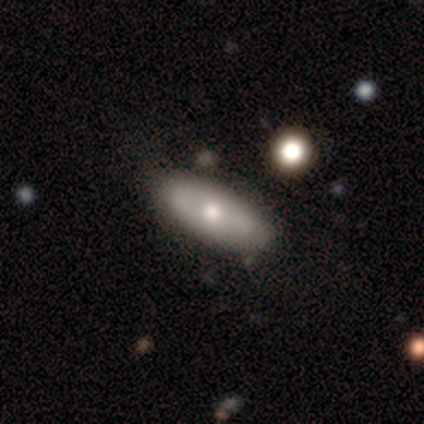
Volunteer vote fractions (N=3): Volunteers were most divided on "spiral winding" (2-way tie): tight: 50%, medium: 50%, loose: 0%. More confident: edge-on disk — no (100%); bar — no (100%); spiral arms — yes (100%); spiral arm count — can't tell (100%); bulge size — moderate (100%); merging — none (100%); smooth or featured — featured or disk (67%).